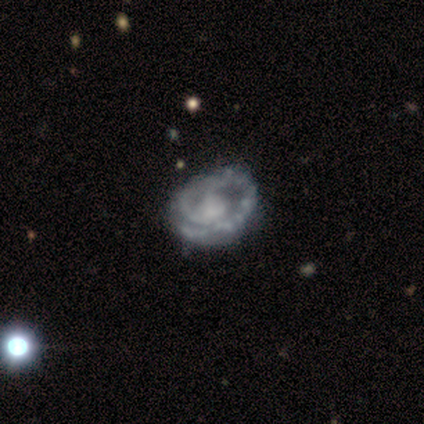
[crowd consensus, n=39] This is clearly a featured or disk galaxy (90%). It is clearly not viewed edge-on (100%). Bar: clearly no (83%). Spiral arm pattern: clearly yes (86%). Spiral arm count: possibly 1 (53%). Spiral winding: likely tight (70%). Central bulge: marginally small (34%). Merging: possibly none (51%).